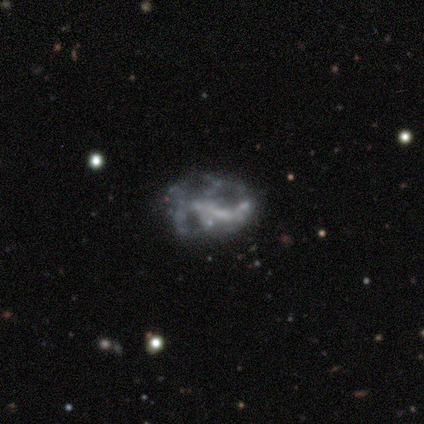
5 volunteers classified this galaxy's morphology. Smooth or featured: featured or disk — 80% (star or artifact — 20%)
Edge-on disk: no — 100%
Bar: no — 75% (weak — 25%)
Spiral arms: no — 100%
Bulge size: none — 75% (moderate — 25%)
Merging: none — 75% (major disturbance — 25%)